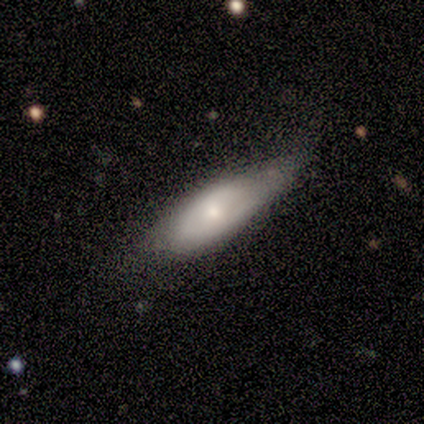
A smooth galaxy with no disk features (50%, tied with featured or disk) that is in between round and cigar-shaped (50%, tied with cigar-shaped). Merging: none (75%).